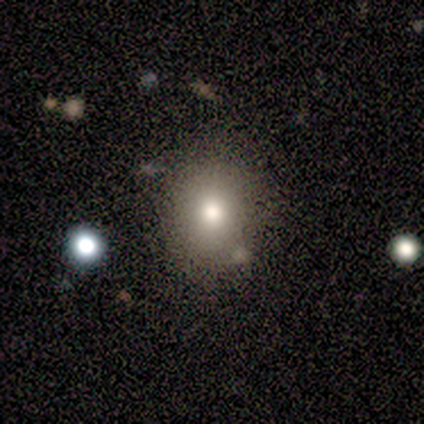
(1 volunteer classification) Morphology: type=star or artifact (100%).